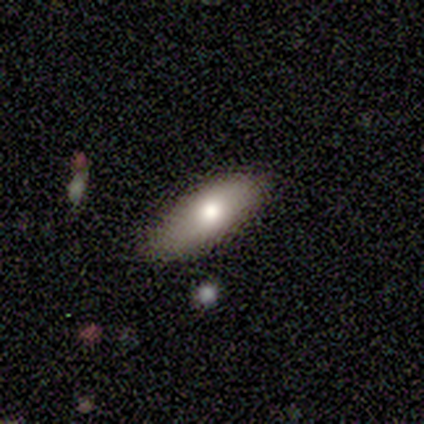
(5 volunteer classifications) Smooth or featured? smooth (100%)
How rounded? in between (80%)
Merging? none (60%)